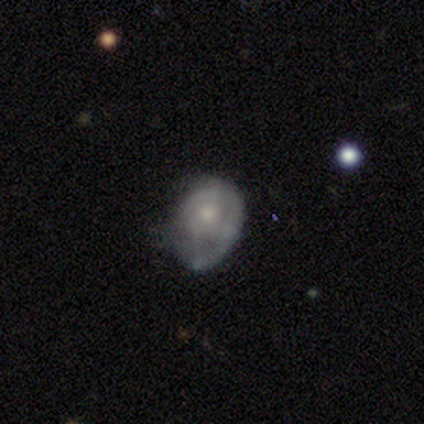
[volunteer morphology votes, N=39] Smooth or featured? featured or disk (56%)
Edge-on disk? no (100%)
Bar? no (95%)
Spiral arms? yes (64%)
Spiral winding? tight (36%, tied with medium)
Spiral arm count? 1 (64%)
Bulge size? moderate (50%)
Merging? none (40%)